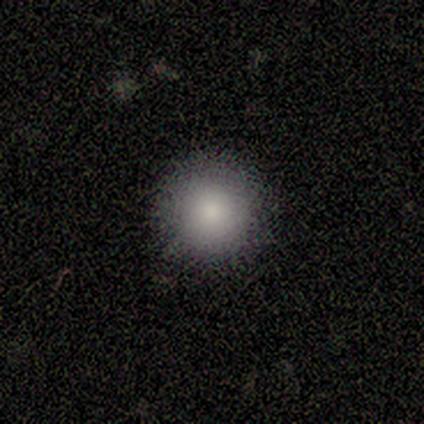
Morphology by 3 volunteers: type=smooth (100%); roundness=round (100%); merging=none (100%).